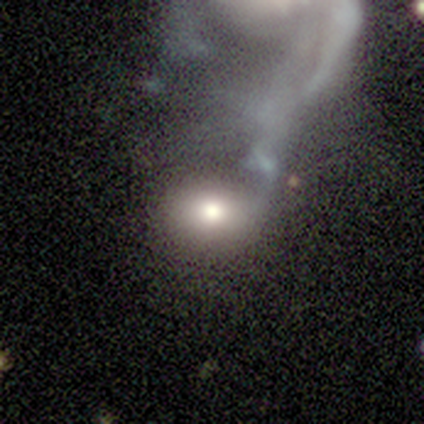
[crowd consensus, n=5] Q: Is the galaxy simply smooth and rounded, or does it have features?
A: smooth — 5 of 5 (100%).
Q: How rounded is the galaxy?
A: in between — 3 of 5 (60%).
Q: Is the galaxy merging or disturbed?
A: major disturbance — 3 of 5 (60%).